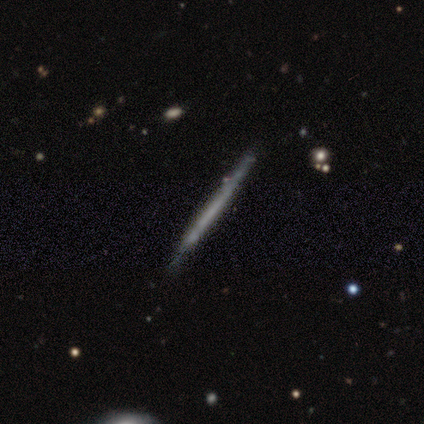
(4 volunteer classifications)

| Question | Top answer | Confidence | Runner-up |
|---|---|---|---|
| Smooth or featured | smooth | 75% | featured or disk (25%) |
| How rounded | cigar-shaped | 100% | — |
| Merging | none | 100% | — |